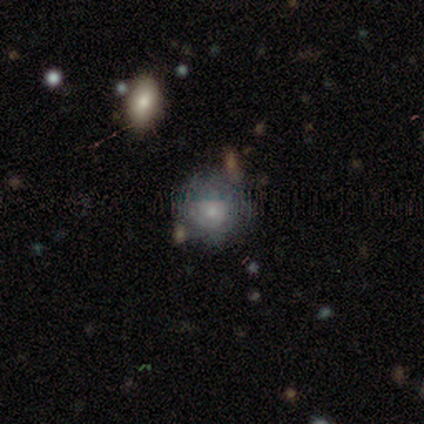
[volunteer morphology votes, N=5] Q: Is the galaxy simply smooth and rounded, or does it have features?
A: featured or disk — 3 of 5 (60%).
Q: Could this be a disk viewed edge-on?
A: no — 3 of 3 (100%).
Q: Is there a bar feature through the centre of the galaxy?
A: no — 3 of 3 (100%).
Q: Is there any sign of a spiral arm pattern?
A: yes — 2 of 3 (67%).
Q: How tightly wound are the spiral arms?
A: tight — 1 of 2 (50%, tied with medium).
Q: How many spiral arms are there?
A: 1 — 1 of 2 (50%, tied with can't tell).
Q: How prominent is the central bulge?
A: small — 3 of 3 (100%).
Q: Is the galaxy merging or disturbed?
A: none — 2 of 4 (50%, tied with minor disturbance).